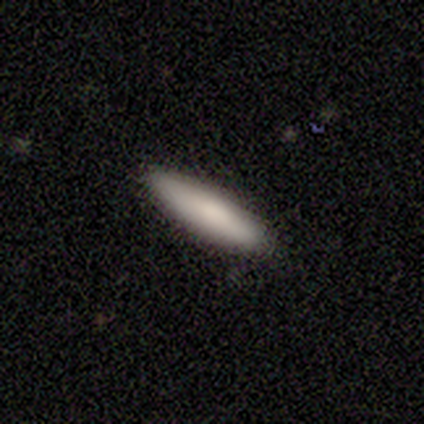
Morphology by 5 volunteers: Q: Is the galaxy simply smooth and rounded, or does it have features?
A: smooth — 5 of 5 (100%).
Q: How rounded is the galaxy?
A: cigar-shaped — 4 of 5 (80%).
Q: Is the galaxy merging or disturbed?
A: none — 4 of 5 (80%).